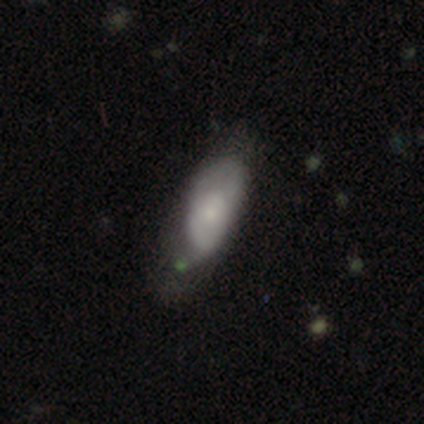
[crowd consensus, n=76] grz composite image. It shows a smooth galaxy with no disk features (55%) that is in between round and cigar-shaped (79%). Merging: none (26%).